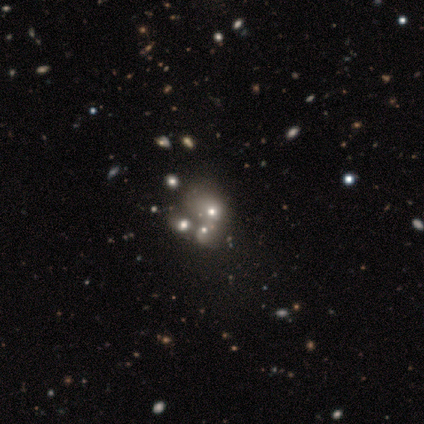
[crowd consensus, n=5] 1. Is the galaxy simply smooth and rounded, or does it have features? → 40% smooth (tied), 40% star or artifact (tied), 20% featured or disk.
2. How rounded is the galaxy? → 50% round (tied), 50% in between (tied), 0% cigar-shaped.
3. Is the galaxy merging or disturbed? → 100% merger, 0% none, 0% minor disturbance, 0% major disturbance.